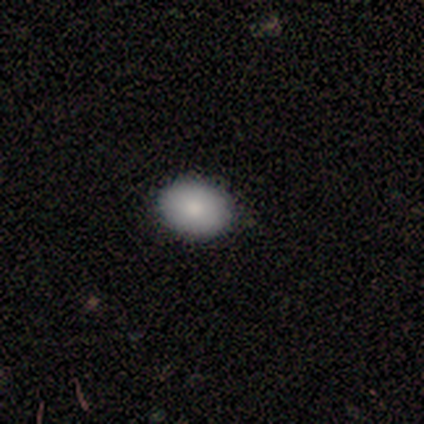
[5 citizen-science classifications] Smooth or featured? 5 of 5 (100%) said smooth. How rounded? 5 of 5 (100%) said in between. Merging? 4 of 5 (80%) said none.